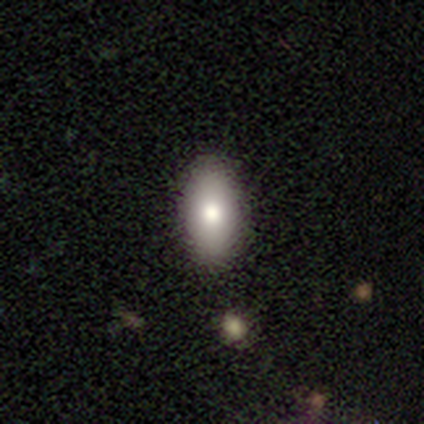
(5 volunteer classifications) A smooth galaxy with no disk features (80%) that is in between round and cigar-shaped (100%).

Vote fractions:
- Smooth or featured? smooth: 80% / featured or disk: 20% / star or artifact: 0%
- How rounded? in between: 100% / round: 0% / cigar-shaped: 0%
- Merging? none: 100% / minor disturbance: 0% / major disturbance: 0% / merger: 0%